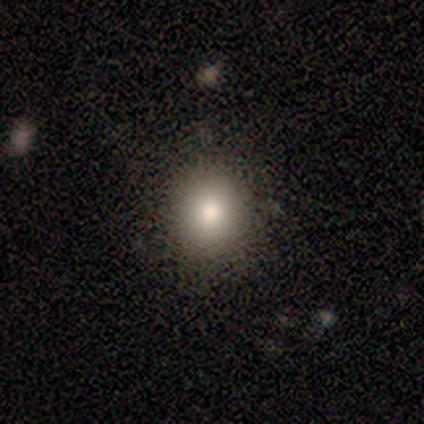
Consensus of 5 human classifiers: Overall: smooth (80%). How rounded: round (50%, tied with in between). Merging: none (100%).